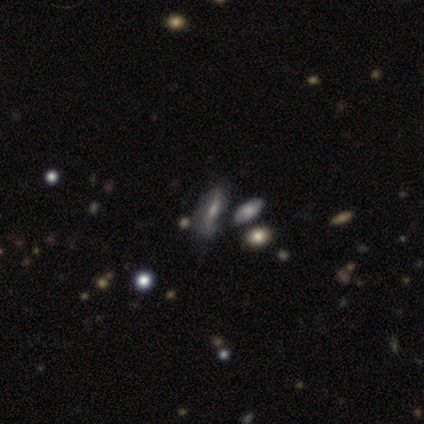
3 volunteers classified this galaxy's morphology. Volunteers were most divided on "edge-on bulge" (2-way tie): boxy: 50%, rounded: 50%, none: 0%. More confident: edge-on disk — yes (100%); smooth or featured — featured or disk (67%); merging — none (67%).